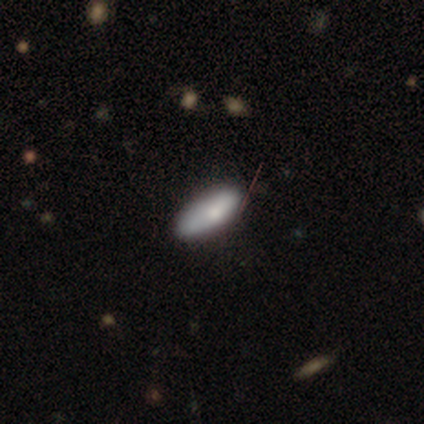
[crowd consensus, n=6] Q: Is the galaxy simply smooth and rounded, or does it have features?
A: smooth — 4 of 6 (67%).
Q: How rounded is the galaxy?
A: in between — 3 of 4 (75%).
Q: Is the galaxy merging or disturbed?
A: none — 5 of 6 (83%).